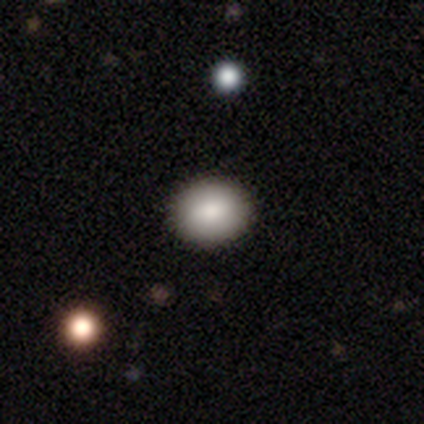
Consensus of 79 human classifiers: Smooth or featured: smooth — 82% (featured or disk — 9%)
How rounded: round — 65% (in between — 35%)
Merging: none — 56% (minor disturbance — 4%)